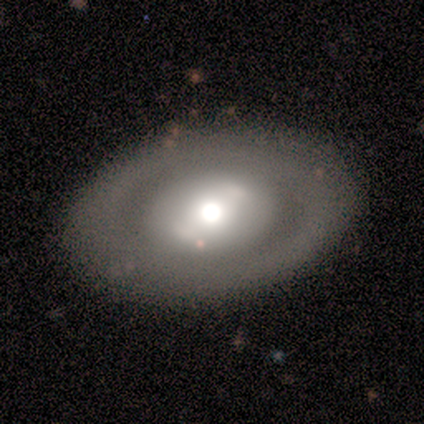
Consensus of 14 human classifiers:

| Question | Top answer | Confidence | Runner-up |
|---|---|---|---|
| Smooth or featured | smooth | 50% | tied: featured or disk (50%) |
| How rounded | in between | 71% | round (29%) |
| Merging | none | 86% | minor disturbance (7%) |